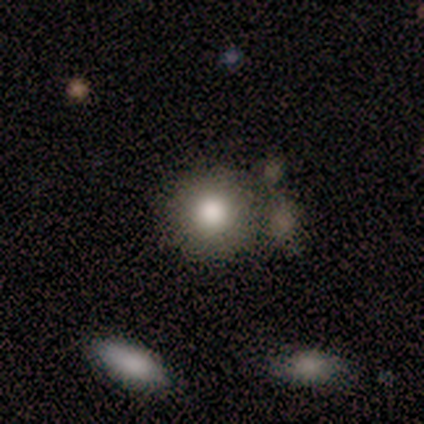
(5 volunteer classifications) Overall: smooth (60%; featured or disk 20%). How rounded: round (100%). Merging: none (75%).